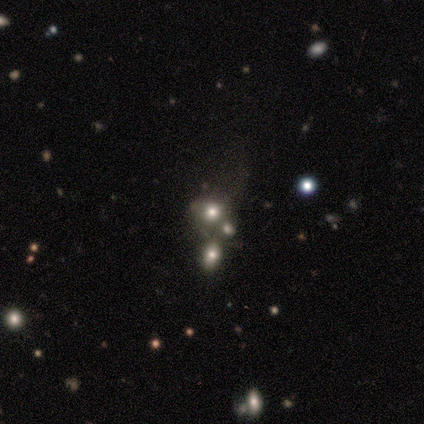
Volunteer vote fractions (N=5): A smooth galaxy with no disk features (60%) that is round (100%).

Vote fractions:
- Smooth or featured? smooth: 60% / featured or disk: 20% / star or artifact: 20%
- How rounded? round: 100% / in between: 0% / cigar-shaped: 0%
- Merging? none: 100% / minor disturbance: 0% / major disturbance: 0% / merger: 0%